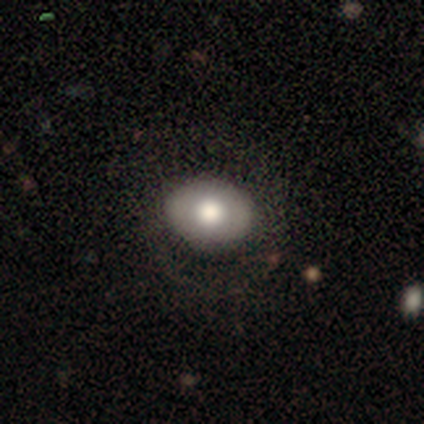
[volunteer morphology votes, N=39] smooth-or-featured: smooth: 54% | featured or disk: 31% | star or artifact: 15%
  how-rounded: in between: 67% | round: 33% | cigar-shaped: 0%
  merging: none: 70% | minor disturbance: 15% | major disturbance: 15% | merger: 0%